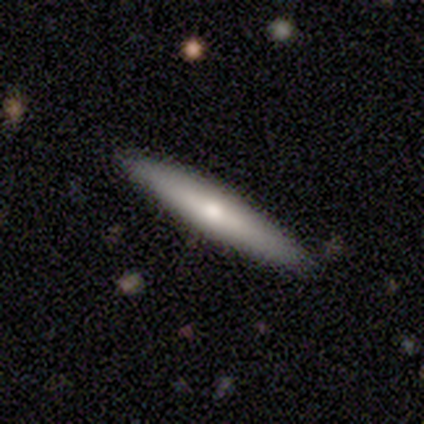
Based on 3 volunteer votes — This appears to be a smooth galaxy with no disk features (67%) that is cigar-shaped (100%). Merging: none (100%).